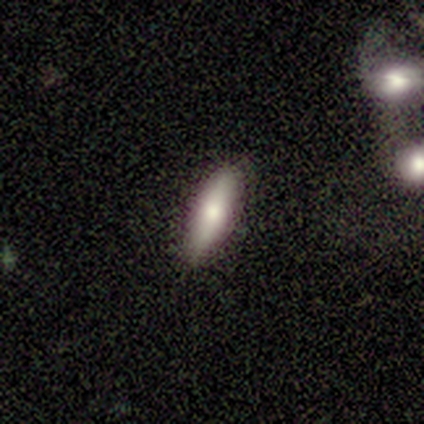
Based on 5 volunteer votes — This is clearly a smooth galaxy (80%). How rounded: likely in between (75%). Merging: likely none (75%).